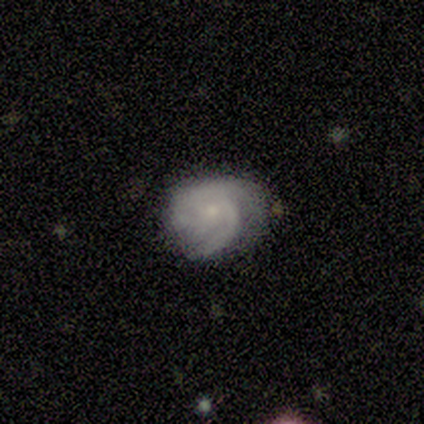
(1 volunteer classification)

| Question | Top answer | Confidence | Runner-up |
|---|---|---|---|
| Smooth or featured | featured or disk | 100% | — |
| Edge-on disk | yes | 100% | — |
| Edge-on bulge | rounded | 100% | — |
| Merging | none | 100% | — |